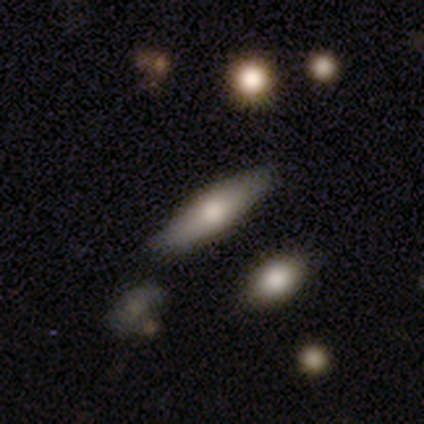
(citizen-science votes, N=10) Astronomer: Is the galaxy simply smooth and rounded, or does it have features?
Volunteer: smooth — 60%.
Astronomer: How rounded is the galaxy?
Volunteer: cigar-shaped — 50% (runner-up: in between, 33%).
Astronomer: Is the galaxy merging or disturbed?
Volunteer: none — 75%.